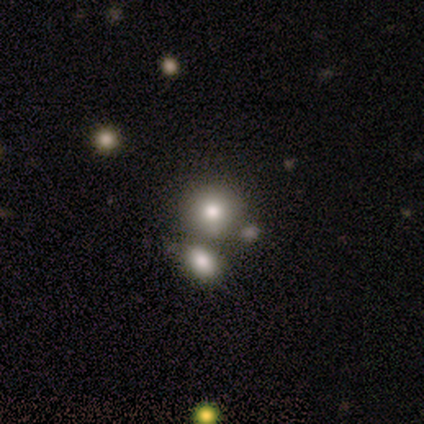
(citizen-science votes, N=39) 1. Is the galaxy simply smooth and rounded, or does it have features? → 62% smooth, 21% featured or disk, 18% star or artifact.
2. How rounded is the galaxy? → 75% round, 25% in between, 0% cigar-shaped.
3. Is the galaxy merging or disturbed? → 44% merger, 34% none, 12% major disturbance, 9% minor disturbance.